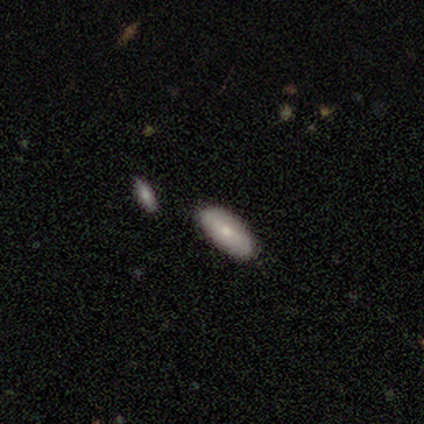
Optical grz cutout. It shows a smooth galaxy with no disk features (80%) that is in between round and cigar-shaped (75%). Merging: none (80%).